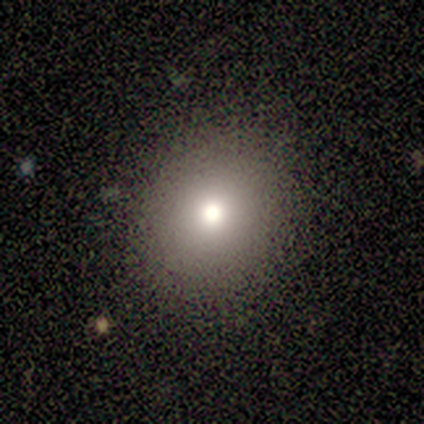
Smooth or featured?
  - smooth: 80% *
  - star or artifact: 20%
  - featured or disk: 0%
How rounded?
  - round: 75% *
  - in between: 25%
  - cigar-shaped: 0%
Merging?
  - none: 100% *
  - minor disturbance: 0%
  - major disturbance: 0%
  - merger: 0%